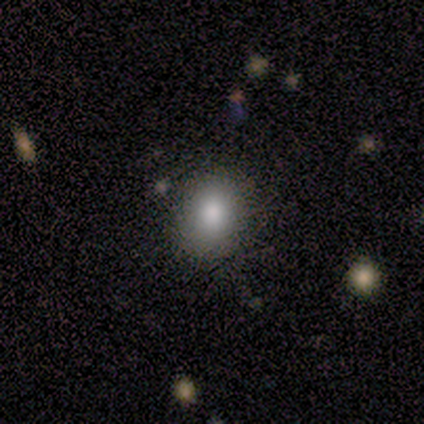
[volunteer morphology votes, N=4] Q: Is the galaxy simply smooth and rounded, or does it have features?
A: smooth — 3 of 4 (75%).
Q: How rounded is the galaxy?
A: in between — 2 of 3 (67%).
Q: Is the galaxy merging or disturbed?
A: none — 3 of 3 (100%).